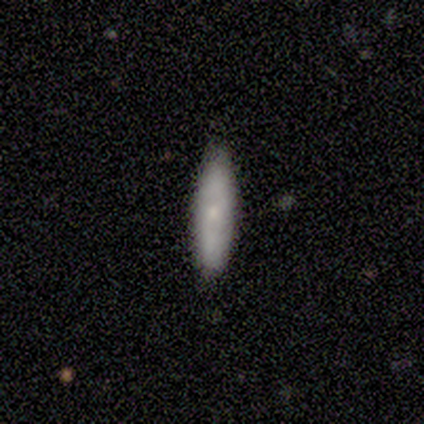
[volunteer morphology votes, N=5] Volunteers were most divided on "bar" (2-way tie): weak: 50%, no: 50%, strong: 0%; "spiral arms" (2-way tie): yes: 50%, no: 50%. More confident: spiral winding — loose (100%); spiral arm count — 2 (100%); bulge size — small (100%); edge-on disk — no (67%); smooth or featured — featured or disk (60%); merging — minor disturbance (60%).